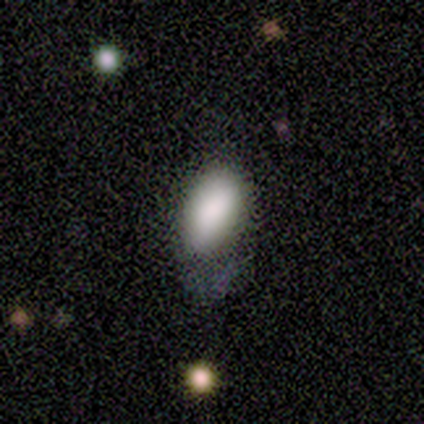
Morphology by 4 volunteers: smooth-or-featured: smooth: 75% | star or artifact: 25% | featured or disk: 0%
  how-rounded: in between: 100% | round: 0% | cigar-shaped: 0%
  merging: minor disturbance: 67% | none: 33% | major disturbance: 0% | merger: 0%